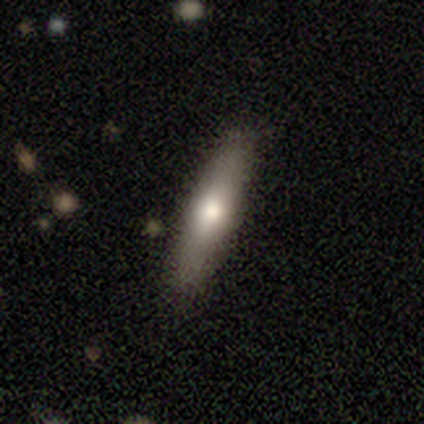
Morphology: type=smooth (68%); roundness=cigar-shaped (89%); merging=none (91%).